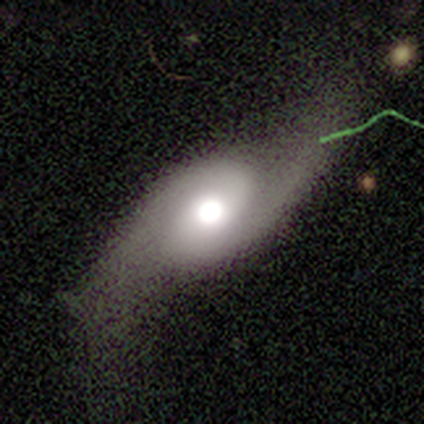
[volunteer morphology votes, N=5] smooth-or-featured: featured or disk: 100% | smooth: 0% | star or artifact: 0%
  disk-edge-on: no: 60% | yes: 40%
    bar: strong: 33% (tied) | weak: 33% (tied) | no: 33% (tied)
    has-spiral-arms: yes: 100% | no: 0%
      spiral-winding: loose: 67% | medium: 33% | tight: 0%
      spiral-arm-count: 2: 100% | 1: 0% | 3: 0% | 4: 0% | more than 4: 0% | can't tell: 0%
    bulge-size: large: 67% | moderate: 33% | dominant: 0% | small: 0% | none: 0%
  merging: none: 60% | minor disturbance: 20% | major disturbance: 20% | merger: 0%